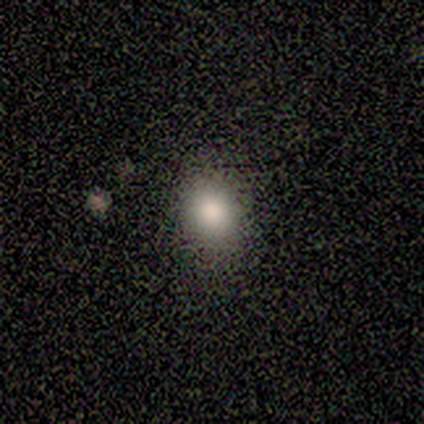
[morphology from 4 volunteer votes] smooth 100%, featured or disk 0%, star or artifact 0%. Down the decision tree: how rounded — round (75%); merging — none (75%).